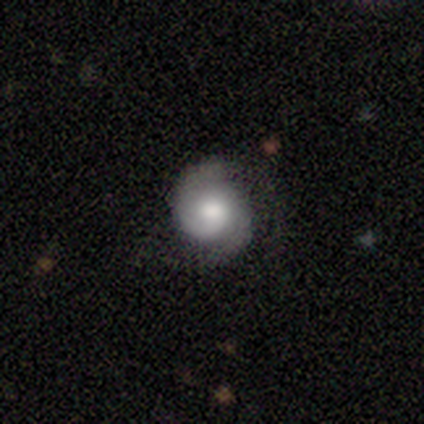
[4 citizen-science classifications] Overall: featured or disk (100%). Edge-on disk: no (100%). Bar: no (75%). Spiral arms: yes (100%). Spiral arm count: 2 (100%). Spiral winding: tight (75%). Bulge size: small (50%; dominant 25%). Merging: none (75%).